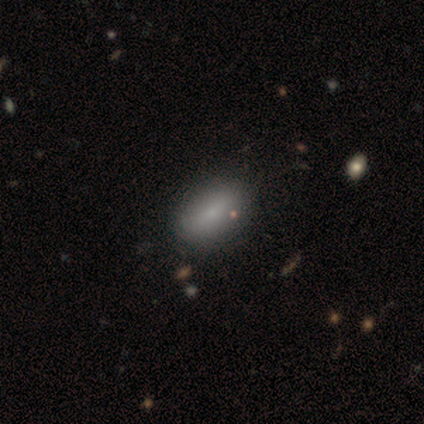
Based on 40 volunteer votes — smooth 88%, featured or disk 10%, star or artifact 2%. Down the decision tree: how rounded — in between (94%); merging — none (56%).